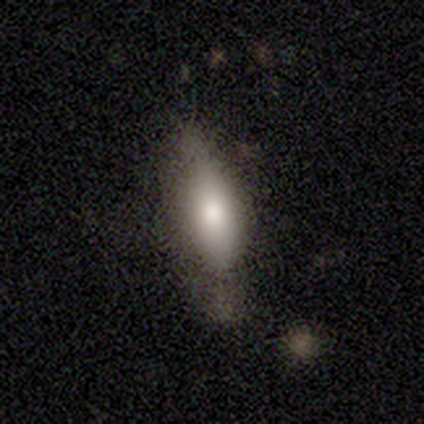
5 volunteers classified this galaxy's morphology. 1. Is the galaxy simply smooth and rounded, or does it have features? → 80% featured or disk, 20% smooth, 0% star or artifact.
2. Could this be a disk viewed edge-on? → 50% yes (tied), 50% no (tied).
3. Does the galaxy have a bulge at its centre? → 100% rounded, 0% boxy, 0% none.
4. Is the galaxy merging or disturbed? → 60% minor disturbance, 20% none, 20% major disturbance, 0% merger.